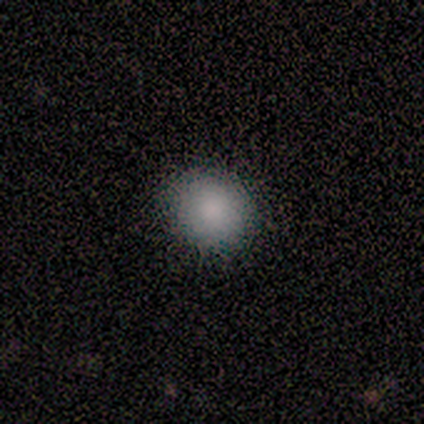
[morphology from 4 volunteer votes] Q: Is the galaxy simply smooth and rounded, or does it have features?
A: smooth — 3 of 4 (75%).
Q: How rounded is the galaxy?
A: round — 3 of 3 (100%).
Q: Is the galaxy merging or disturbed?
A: none — 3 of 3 (100%).